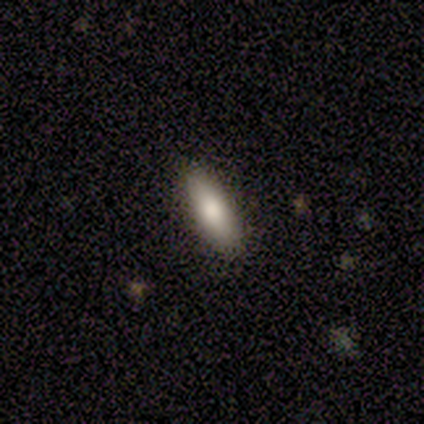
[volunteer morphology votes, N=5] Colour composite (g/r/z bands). It shows a smooth galaxy with no disk features (100%) that is in between round and cigar-shaped (60%). Merging: none (100%).